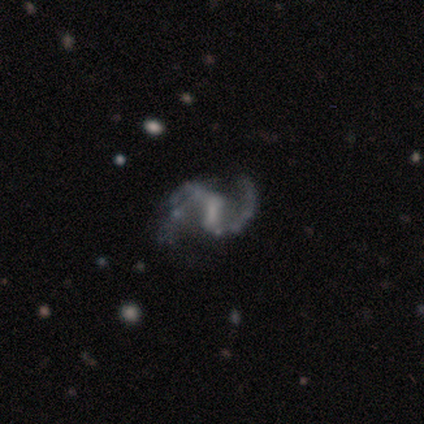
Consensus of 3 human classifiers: This is clearly a featured or disk galaxy (100%). It is clearly not viewed edge-on (100%). Bar: clearly weak (100%). Spiral arm pattern: clearly yes (100%). Spiral arm count: clearly 2 (100%). Spiral winding: clearly medium (100%). Central bulge: likely small (67%). Merging: likely none (67%).